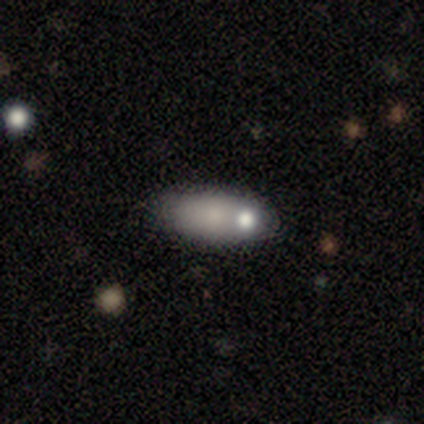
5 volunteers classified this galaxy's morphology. Smooth or featured: smooth — 60% (featured or disk — 20%)
How rounded: in between — 67% (cigar-shaped — 33%)
Merging: none — 100%